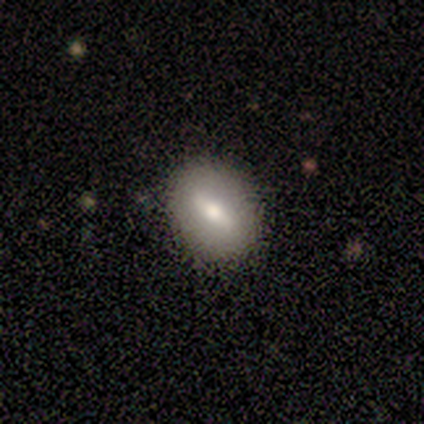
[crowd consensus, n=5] Smooth or featured? 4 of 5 (80%) said smooth. How rounded? 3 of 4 (75%) said round. Merging? 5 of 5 (100%) said none.